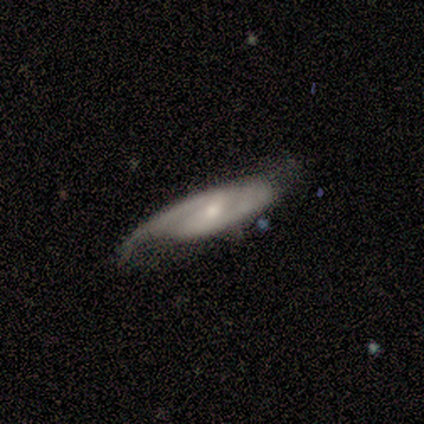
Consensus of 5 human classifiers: Smooth or featured? 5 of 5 (100%) said featured or disk. Edge-on disk? 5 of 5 (100%) said no. Bar? 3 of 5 (60%) said weak. Spiral arms? 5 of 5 (100%) said yes. Spiral winding? 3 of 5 (60%) said medium. Spiral arm count? 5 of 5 (100%) said 2. Bulge size? 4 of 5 (80%) said small. Merging? 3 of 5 (60%) said none.